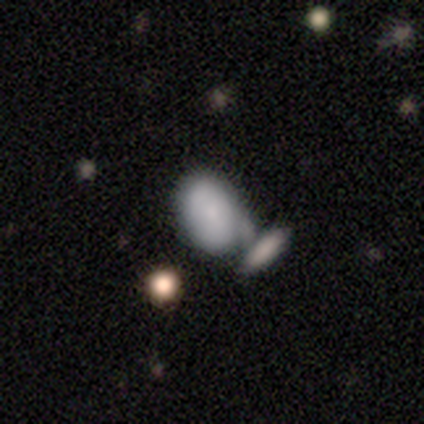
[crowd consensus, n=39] Morphology: type=smooth (82%); roundness=in between (88%); merging=merger (49%).